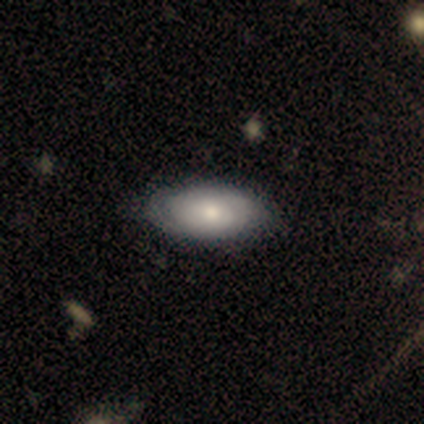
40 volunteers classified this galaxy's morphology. smooth-or-featured: smooth: 72% | featured or disk: 28% | star or artifact: 0%
  how-rounded: in between: 97% | cigar-shaped: 3% | round: 0%
  merging: none: 65% | minor disturbance: 5% | major disturbance: 2% | merger: 0%